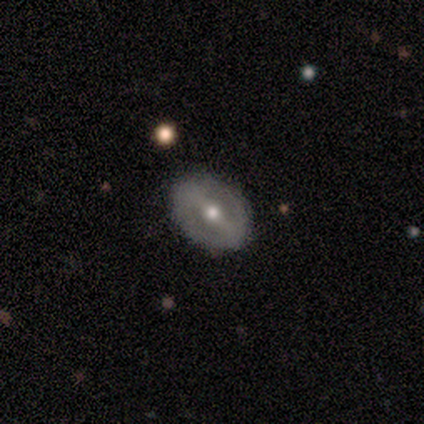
A smooth galaxy with no disk features (50%, tied with featured or disk) that is in between round and cigar-shaped (100%).

Vote fractions:
- Smooth or featured? smooth: 50% (tied) / featured or disk: 50% (tied) / star or artifact: 0%
- How rounded? in between: 100% / round: 0% / cigar-shaped: 0%
- Merging? none: 100% / minor disturbance: 0% / major disturbance: 0% / merger: 0%